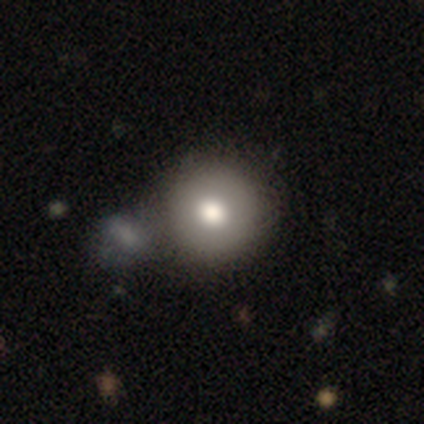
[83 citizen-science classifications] smooth-or-featured: smooth: 78% | star or artifact: 12% | featured or disk: 10%
  how-rounded: round: 97% | in between: 2% | cigar-shaped: 2%
  merging: none: 71% | merger: 15% | minor disturbance: 11% | major disturbance: 3%